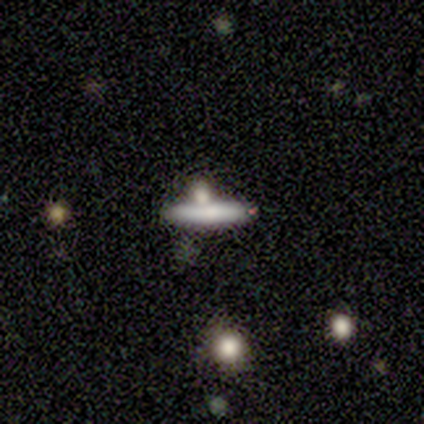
Overall: smooth (80%). How rounded: cigar-shaped (100%). Merging: none (40%, tied with merger).